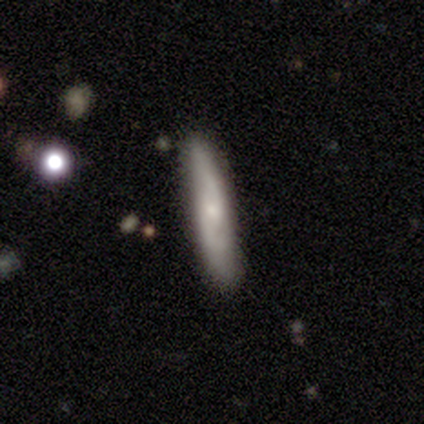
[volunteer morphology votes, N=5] A featured or disk galaxy (60%) viewed edge-on (100%) with no central bulge (67%). Merging: none (75%).